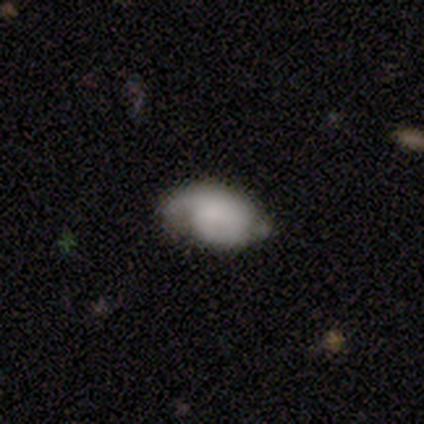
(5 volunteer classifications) A featured or disk galaxy (60%) with no bar (67%), 1 (50%, tied with can't tell) tight (50%, tied with loose) spiral arms (67%) and no central bulge (67%). Merging: none (50%, tied with minor disturbance).